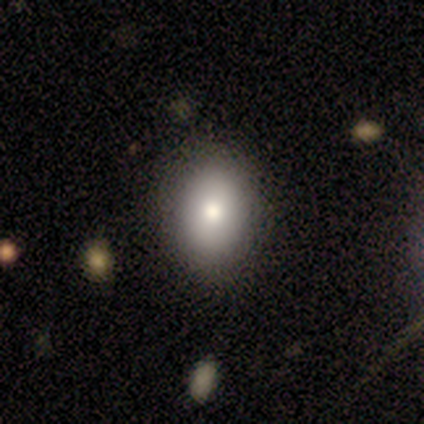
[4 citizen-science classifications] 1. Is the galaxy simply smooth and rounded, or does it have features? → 100% smooth, 0% featured or disk, 0% star or artifact.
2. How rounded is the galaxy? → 100% in between, 0% round, 0% cigar-shaped.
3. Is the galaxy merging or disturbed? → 100% none, 0% minor disturbance, 0% major disturbance, 0% merger.